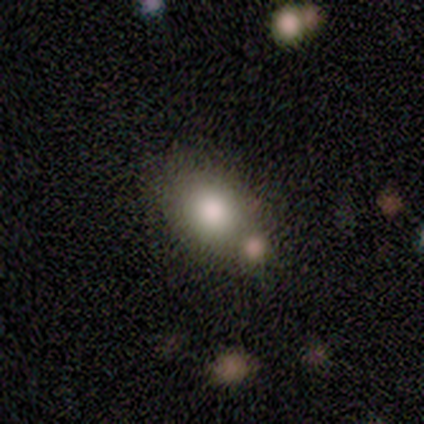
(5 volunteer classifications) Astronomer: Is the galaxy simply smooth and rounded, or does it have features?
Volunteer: smooth — 80%.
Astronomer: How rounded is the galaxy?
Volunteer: in between — 100%.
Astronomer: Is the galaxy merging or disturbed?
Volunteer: none — 75%.